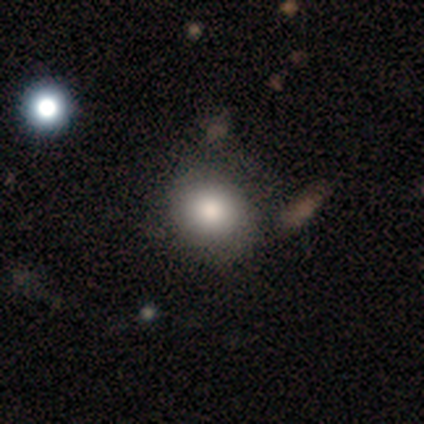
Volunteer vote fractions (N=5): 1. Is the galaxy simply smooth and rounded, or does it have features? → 80% smooth, 20% star or artifact, 0% featured or disk.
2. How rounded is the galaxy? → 75% round, 25% in between, 0% cigar-shaped.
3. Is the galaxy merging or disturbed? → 75% none, 25% minor disturbance, 0% major disturbance, 0% merger.